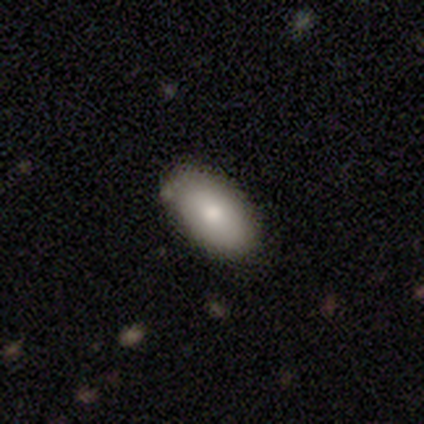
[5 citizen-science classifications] smooth_or_featured: smooth (p=1.00)
how_rounded: in between (p=1.00)
merging: none (p=1.00)